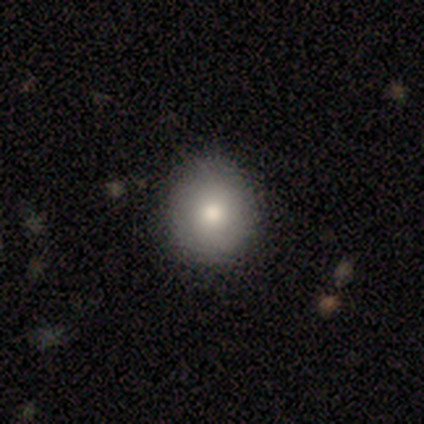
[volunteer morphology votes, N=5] smooth_or_featured: smooth (p=0.80) [alt: star or artifact p=0.20]
how_rounded: round (p=0.75) [alt: in between p=0.25]
merging: none (p=0.50) [tied with: minor disturbance p=0.50]